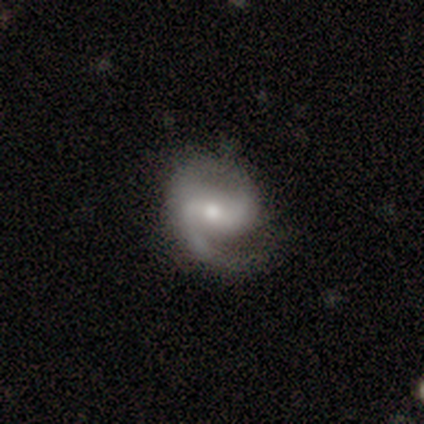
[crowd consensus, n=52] Smooth or featured? featured or disk (83%)
Edge-on disk? no (100%)
Bar? weak (53%)
Spiral arms? yes (98%)
Spiral winding? medium (69%)
Spiral arm count? 2 (81%)
Bulge size? moderate (70%)
Merging? none (60%)